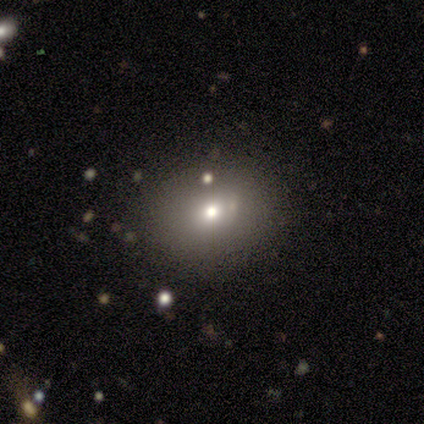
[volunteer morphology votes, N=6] Volunteers were most divided on "how rounded": round: 60%, in between: 40%, cigar-shaped: 0%. More confident: merging — none (100%); smooth or featured — smooth (83%).